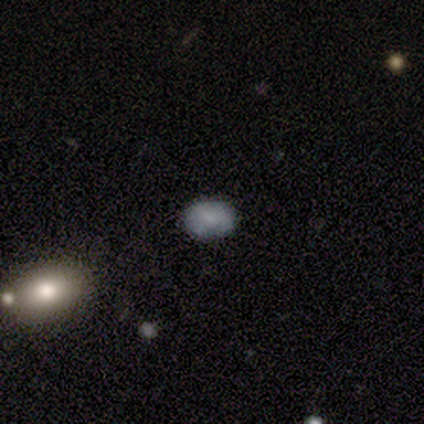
Smooth or featured? 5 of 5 (100%) said smooth. How rounded? 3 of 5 (60%) said in between. Merging? 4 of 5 (80%) said none.